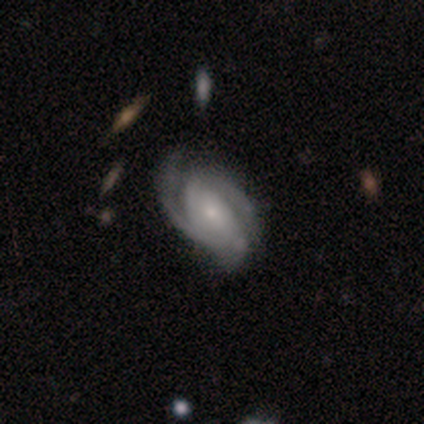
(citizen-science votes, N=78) A featured or disk galaxy (96%) with no bar (66%), 2 (53%) medium (50%) spiral arms (96%) and a small central bulge (71%).

Vote fractions:
- Smooth or featured? featured or disk: 96% / star or artifact: 3% / smooth: 1%
- Edge-on disk? no: 97% / yes: 3%
- Bar? no: 66% / weak: 25% / strong: 10%
- Spiral arms? yes: 96% / no: 4%
- Spiral winding? medium: 50% / tight: 40% / loose: 10%
- Spiral arm count? 2: 53% / 3: 30% / can't tell: 14% / 1: 3% / 4: 0% / more than 4: 0%
- Bulge size? small: 71% / moderate: 19% / none: 7% / large: 3% / dominant: 0%
- Merging? none: 38% / minor disturbance: 9% / major disturbance: 9% / merger: 4%